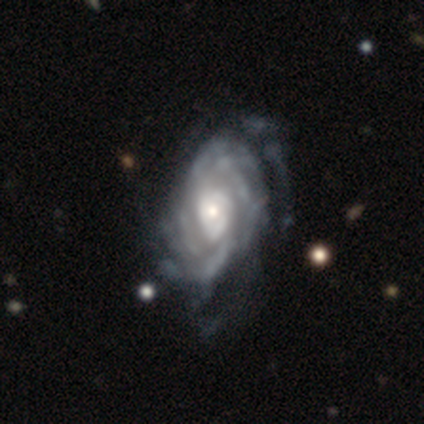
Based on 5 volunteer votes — This is clearly a featured or disk galaxy (80%). It is clearly not viewed edge-on (100%). Bar: likely no (75%). Spiral arm pattern: likely yes (75%). Spiral arm count: marginally 3 (33%, tied with 4 and can't tell). Spiral winding: marginally tight (33%, tied with medium and loose). Central bulge: likely moderate (75%). Merging: possibly minor disturbance (50%, tied with major disturbance).